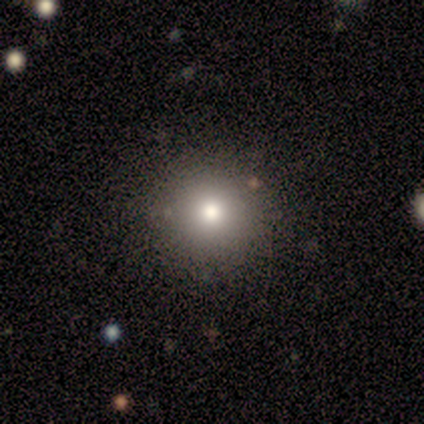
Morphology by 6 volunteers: Overall: smooth (83%). How rounded: round (100%). Merging: none (80%).